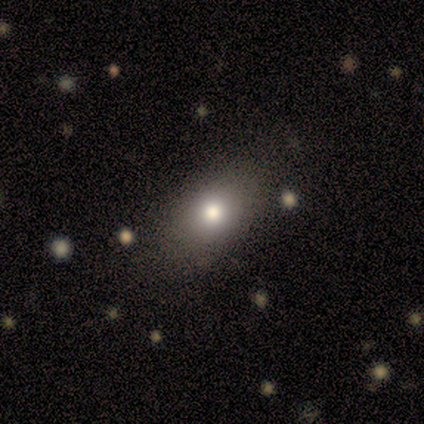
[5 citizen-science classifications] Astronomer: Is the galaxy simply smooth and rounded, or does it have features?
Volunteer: smooth — 80%.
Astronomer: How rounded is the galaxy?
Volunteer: round — 75%.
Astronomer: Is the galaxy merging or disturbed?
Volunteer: none — 100%.